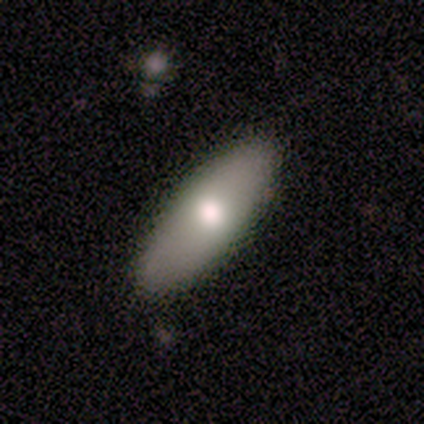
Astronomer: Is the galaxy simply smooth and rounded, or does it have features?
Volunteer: smooth — 80%.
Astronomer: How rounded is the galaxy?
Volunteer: in between — 50%, tied with cigar-shaped at 50%.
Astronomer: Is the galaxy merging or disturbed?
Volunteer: none — 60% (runner-up: minor disturbance, 40%).